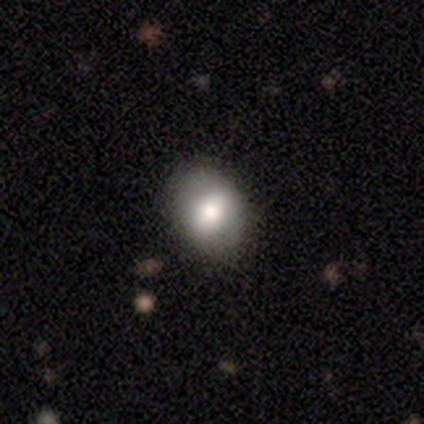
A smooth galaxy with no disk features (72%) that is in between round and cigar-shaped (57%).

Vote fractions:
- Smooth or featured? smooth: 72% / featured or disk: 23% / star or artifact: 5%
- How rounded? in between: 57% / round: 43% / cigar-shaped: 0%
- Merging? none: 89% / minor disturbance: 11% / major disturbance: 0% / merger: 0%